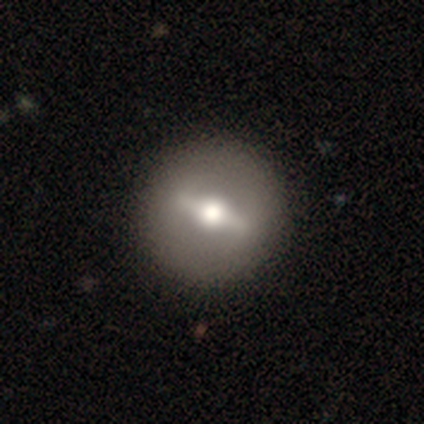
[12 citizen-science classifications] Smooth or featured? featured or disk (75%)
Edge-on disk? no (67%)
Bar? strong (67%)
Spiral arms? no (83%)
Bulge size? moderate (83%)
Merging? none (75%)